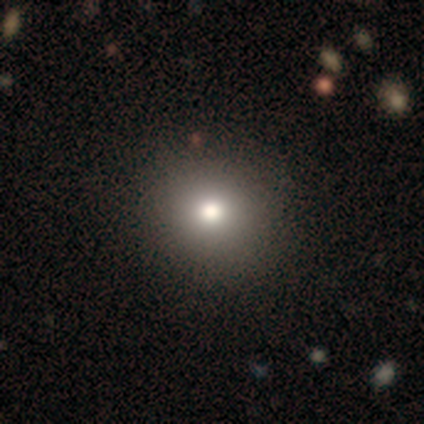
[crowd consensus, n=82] smooth_or_featured: smooth (p=0.80) [alt: star or artifact p=0.12]
how_rounded: round (p=0.88) [alt: in between p=0.12]
merging: none (p=0.60) [alt: minor disturbance p=0.03]